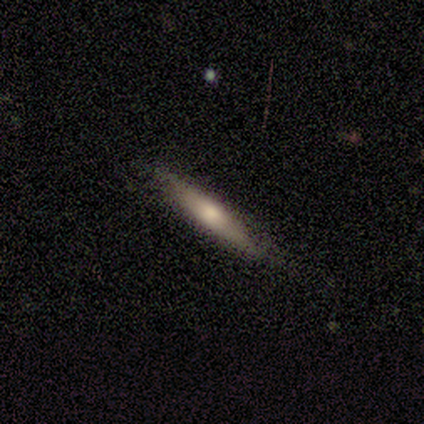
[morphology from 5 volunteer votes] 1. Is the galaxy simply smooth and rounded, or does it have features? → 80% smooth, 20% featured or disk, 0% star or artifact.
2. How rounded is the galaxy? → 100% cigar-shaped, 0% round, 0% in between.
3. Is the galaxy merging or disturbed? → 60% none, 40% minor disturbance, 0% major disturbance, 0% merger.